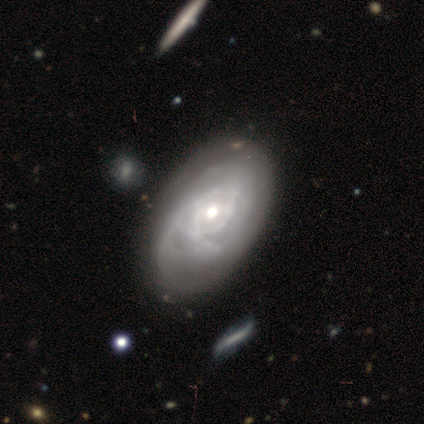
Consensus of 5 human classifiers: Smooth or featured? featured or disk (100%)
Edge-on disk? no (100%)
Bar? no (100%)
Spiral arms? yes (80%)
Spiral winding? tight (100%)
Spiral arm count? 2 (50%, tied with 3)
Bulge size? moderate (60%)
Merging? none (60%)